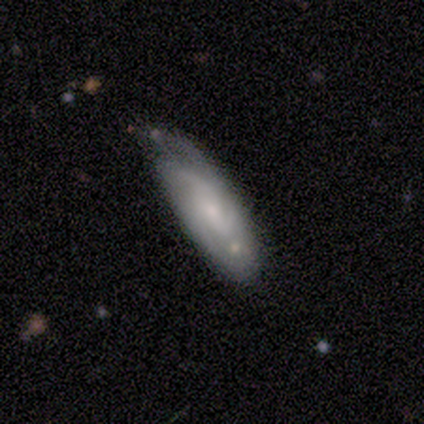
Morphology: type=featured or disk (80%); edge-on=no (100%); bar=weak (50%, tied with no); spiral arms=yes (75%); winding=loose (67%); arm count=3 (67%); bulge=small (75%); merging=none (80%).